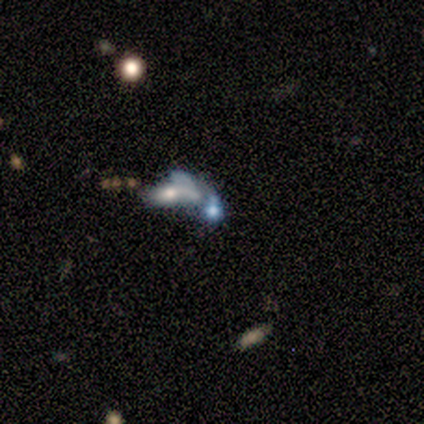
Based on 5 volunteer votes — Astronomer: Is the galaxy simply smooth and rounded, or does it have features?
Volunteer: featured or disk — 60%.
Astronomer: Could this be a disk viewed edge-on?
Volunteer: no — 67%.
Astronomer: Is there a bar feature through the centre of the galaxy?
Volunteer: weak — 50%, tied with no at 50%.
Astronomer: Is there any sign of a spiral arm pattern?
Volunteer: no — 100%.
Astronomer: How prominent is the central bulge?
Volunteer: large — 50%, tied with small at 50%.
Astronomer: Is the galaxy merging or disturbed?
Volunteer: merger — 75%.